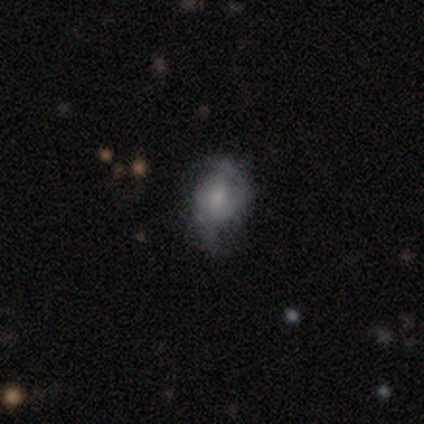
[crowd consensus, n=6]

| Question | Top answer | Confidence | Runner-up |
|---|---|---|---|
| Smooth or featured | star or artifact | 67% | smooth (17%) |